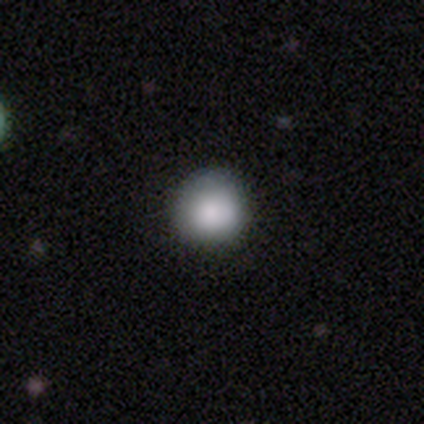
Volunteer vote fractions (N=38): Volunteers were most divided on "smooth or featured": smooth: 84%, featured or disk: 8%, star or artifact: 8%. More confident: how rounded — round (94%); merging — none (86%).